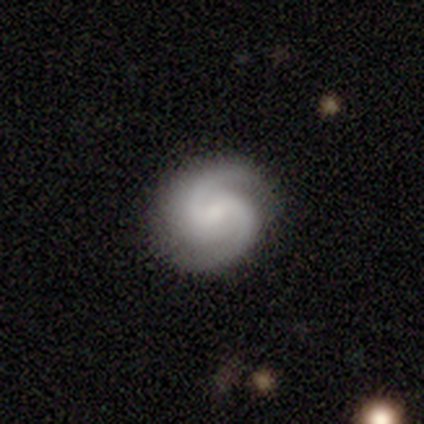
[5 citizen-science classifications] Volunteers were most divided on "bar": no: 60%, weak: 40%, strong: 0%. More confident: smooth or featured — featured or disk (100%); edge-on disk — no (100%); spiral arms — yes (100%); merging — none (100%); bulge size — small (80%); spiral winding — medium (60%); spiral arm count — 2 (60%).